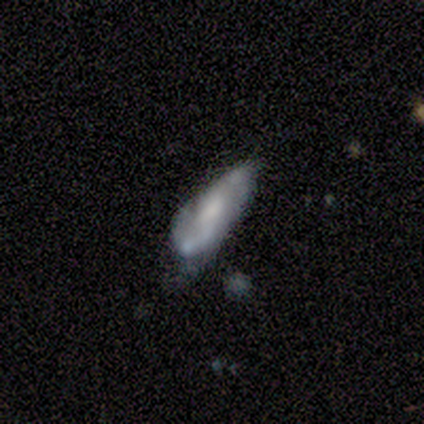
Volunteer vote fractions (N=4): A smooth galaxy with no disk features (75%) that is in between round and cigar-shaped (67%). Merging: minor disturbance (75%).